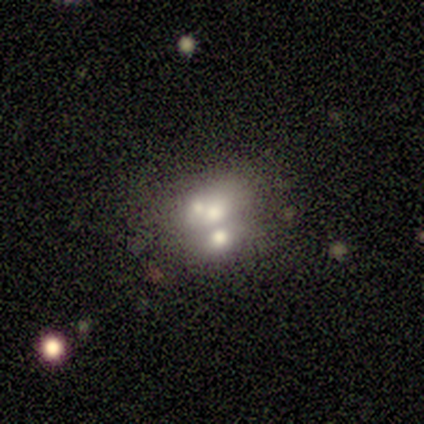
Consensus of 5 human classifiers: This appears to be a featured or disk galaxy (80%) with no bar (100%), no spiral arms (100%) and a moderate central bulge (50%). Merging: merger (60%).